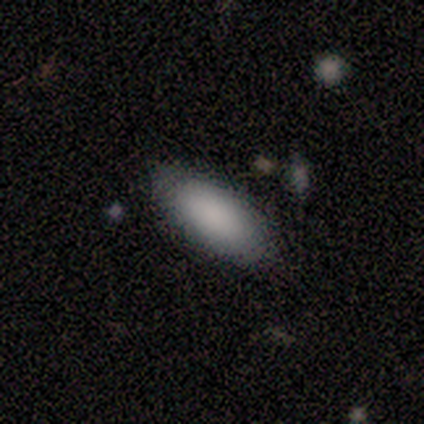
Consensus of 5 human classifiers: A smooth galaxy with no disk features (80%) that is in between round and cigar-shaped (100%). Merging: none (60%).